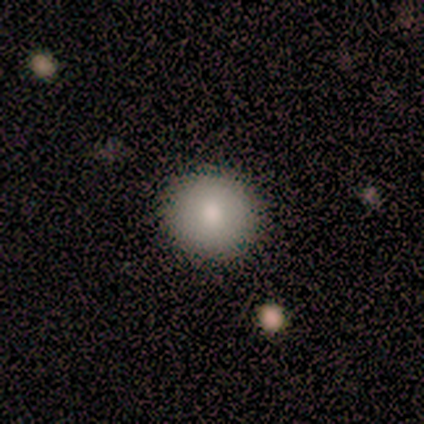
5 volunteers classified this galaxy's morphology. This appears to be a smooth galaxy with no disk features (60%) that is round (100%). Merging: none (100%).